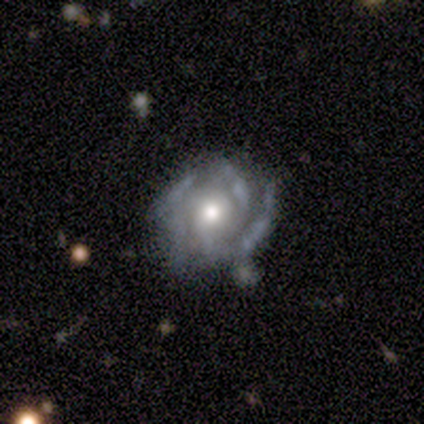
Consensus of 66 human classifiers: smooth-or-featured: featured or disk: 83% | smooth: 9% | star or artifact: 8%
  disk-edge-on: no: 100% | yes: 0%
    bar: no: 93% | weak: 5% | strong: 2%
    has-spiral-arms: yes: 85% | no: 15%
      spiral-winding: tight: 55% | medium: 30% | loose: 15%
      spiral-arm-count: 2: 26% (tied) | 3: 26% (tied) | can't tell: 26% (tied) | 4: 15% | 1: 6% | more than 4: 2%
    bulge-size: moderate: 62% | large: 24% | small: 15% | dominant: 0% | none: 0%
  merging: none: 48% | minor disturbance: 33% | major disturbance: 13% | merger: 7%